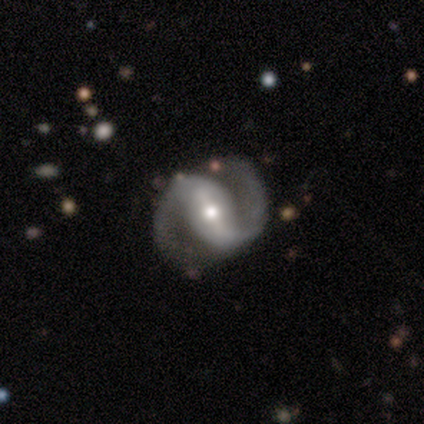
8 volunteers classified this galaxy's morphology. Q: Smooth or featured?
A: featured or disk (62%); runner-up: star or artifact (25%)
Q: Edge-on disk?
A: no (100%)
Q: Bar?
A: strong (80%); runner-up: weak (20%)
Q: Spiral arms?
A: yes (100%)
Q: Spiral winding?
A: medium (100%)
Q: Spiral arm count?
A: 2 (100%)
Q: Bulge size?
A: small (80%); runner-up: moderate (20%)
Q: Merging?
A: none (100%)